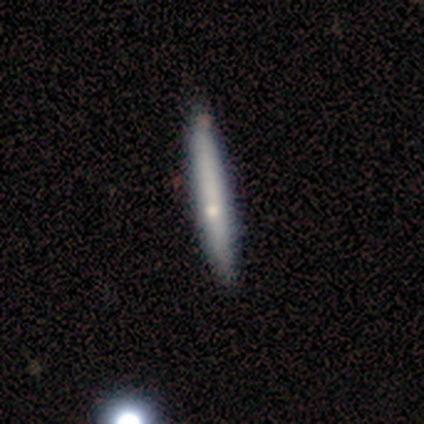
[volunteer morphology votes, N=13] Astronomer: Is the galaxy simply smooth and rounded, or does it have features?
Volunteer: featured or disk — 62% (runner-up: smooth, 38%).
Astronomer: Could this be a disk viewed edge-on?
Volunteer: yes — 100%.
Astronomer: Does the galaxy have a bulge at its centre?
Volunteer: none — 50%, tied with rounded at 50%.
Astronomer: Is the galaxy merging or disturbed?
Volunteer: none — 69%.